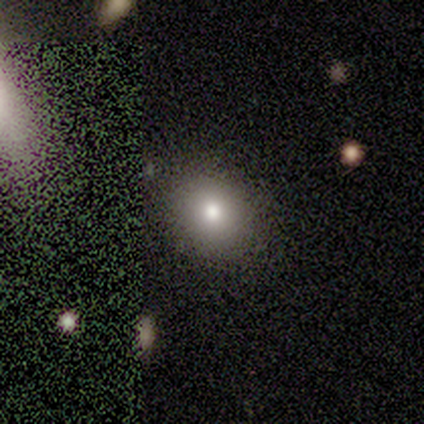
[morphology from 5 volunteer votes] A smooth galaxy with no disk features (80%) that is round (100%). Merging: none (100%).